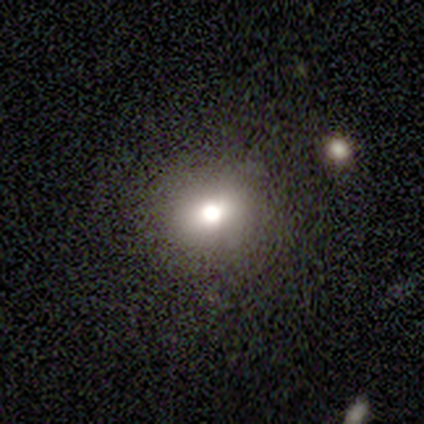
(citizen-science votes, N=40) Smooth or featured? 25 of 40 (62%) said smooth. How rounded? 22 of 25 (88%) said round. Merging? 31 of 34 (91%) said none.